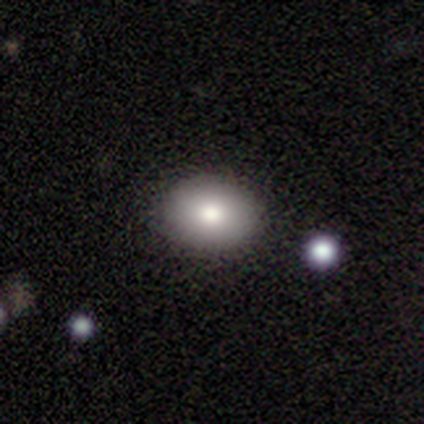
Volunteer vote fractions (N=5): Volunteers were most divided on "smooth or featured": smooth: 80%, featured or disk: 20%, star or artifact: 0%. More confident: how rounded — in between (100%); merging — none (80%).